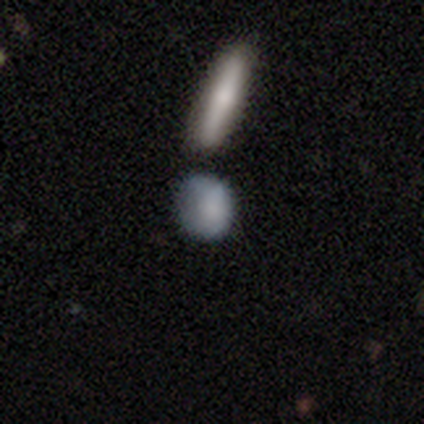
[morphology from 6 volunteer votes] Smooth or featured? smooth (83%)
How rounded? round (40%, tied with in between)
Merging? none (50%, tied with minor disturbance)